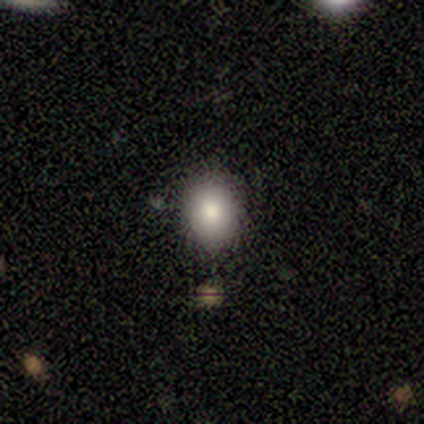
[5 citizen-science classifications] smooth-or-featured: smooth: 60% | star or artifact: 40% | featured or disk: 0%
  how-rounded: round: 67% | in between: 33% | cigar-shaped: 0%
  merging: none: 100% | minor disturbance: 0% | major disturbance: 0% | merger: 0%